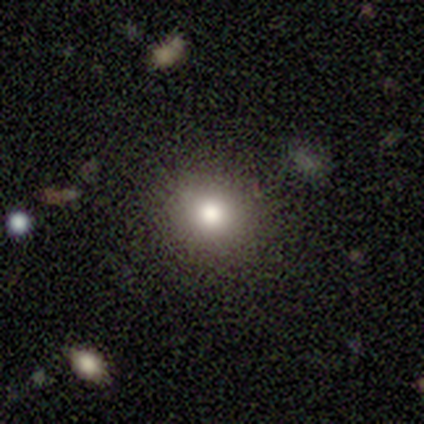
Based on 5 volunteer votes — Morphology: type=smooth (80%); roundness=round (75%); merging=none (100%).